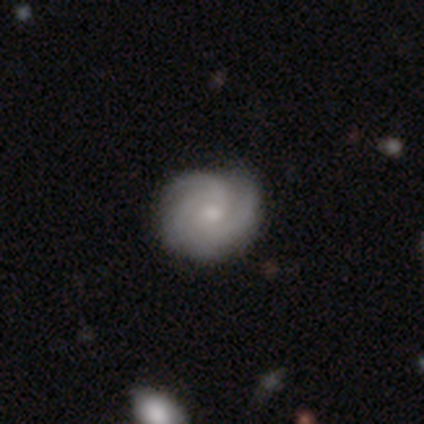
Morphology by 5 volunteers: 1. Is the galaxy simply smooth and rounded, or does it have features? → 80% featured or disk, 20% smooth, 0% star or artifact.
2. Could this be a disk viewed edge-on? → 100% no, 0% yes.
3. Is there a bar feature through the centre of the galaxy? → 100% no, 0% strong, 0% weak.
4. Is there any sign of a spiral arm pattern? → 100% yes, 0% no.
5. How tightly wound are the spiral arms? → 100% tight, 0% medium, 0% loose.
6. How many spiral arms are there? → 75% 3, 25% 4, 0% 1, 0% 2, 0% more than 4, 0% can't tell.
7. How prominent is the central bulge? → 75% small, 25% moderate, 0% dominant, 0% large, 0% none.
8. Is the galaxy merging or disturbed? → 80% none, 20% minor disturbance, 0% major disturbance, 0% merger.